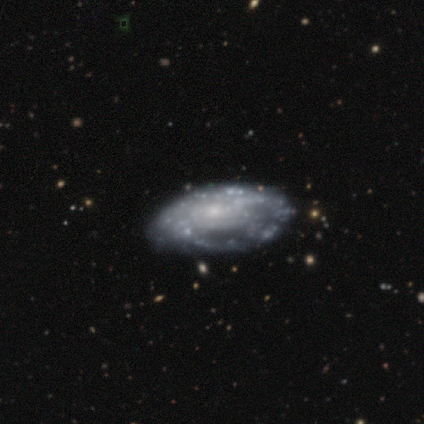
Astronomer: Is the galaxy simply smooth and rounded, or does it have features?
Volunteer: smooth — 50%, tied with featured or disk at 50%.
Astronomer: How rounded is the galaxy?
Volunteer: in between — 100%.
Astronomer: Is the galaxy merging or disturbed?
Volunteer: none — 50%.